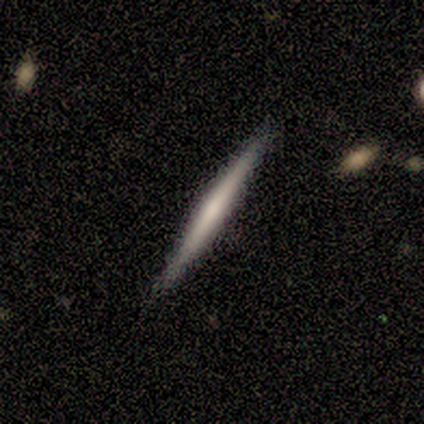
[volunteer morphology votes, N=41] Smooth or featured? featured or disk (73%)
Edge-on disk? yes (100%)
Edge-on bulge? none (50%)
Merging? none (92%)